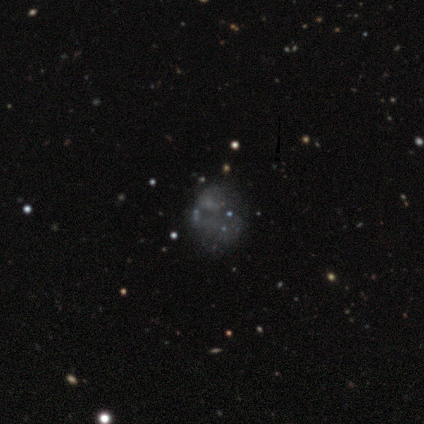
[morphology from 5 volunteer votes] A featured or disk galaxy (60%) with no bar (100%), no spiral arms (67%) and no central bulge (100%). Merging: none (50%, tied with major disturbance).